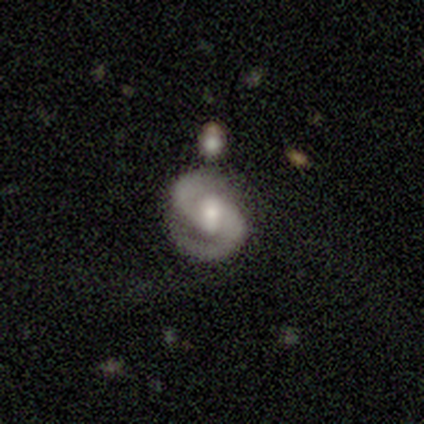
A featured or disk galaxy (100%) with a weak bar (60%), 2 (97%) medium (57%) spiral arms (100%) and a moderate central bulge (60%). Merging: none (62%).